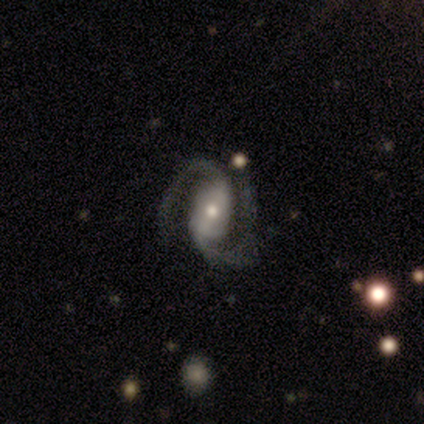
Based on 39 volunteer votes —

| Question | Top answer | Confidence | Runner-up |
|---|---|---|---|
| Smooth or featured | featured or disk | 92% | smooth (5%) |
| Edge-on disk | no | 94% | yes (6%) |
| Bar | weak | 44% | strong (29%) |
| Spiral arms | yes | 100% | — |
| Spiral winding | medium | 41% | tight (29%) |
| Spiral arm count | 2 | 85% | 3 (6%) |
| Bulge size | small | 50% | moderate (41%) |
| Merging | none | 61% | minor disturbance (29%) |